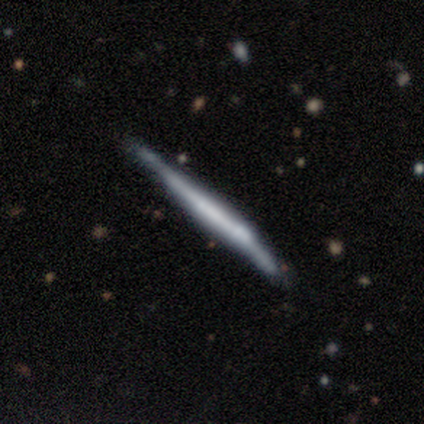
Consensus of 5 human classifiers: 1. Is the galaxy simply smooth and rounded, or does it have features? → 100% featured or disk, 0% smooth, 0% star or artifact.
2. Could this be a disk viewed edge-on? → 100% yes, 0% no.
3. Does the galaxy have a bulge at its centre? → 60% boxy, 40% none, 0% rounded.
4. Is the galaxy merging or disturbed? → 80% none, 20% minor disturbance, 0% major disturbance, 0% merger.